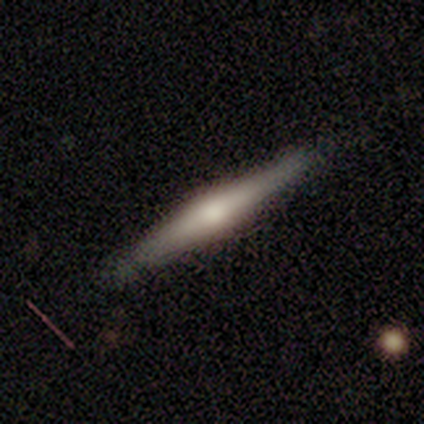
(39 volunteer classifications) Overall: featured or disk (72%). Edge-on disk: yes (100%). Edge-on bulge: rounded (86%). Merging: none (56%).